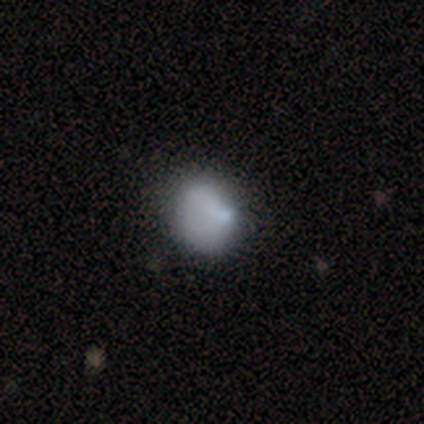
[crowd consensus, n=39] Smooth or featured? 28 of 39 (72%) said smooth. How rounded? 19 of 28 (68%) said round. Merging? 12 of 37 (32%) said none.